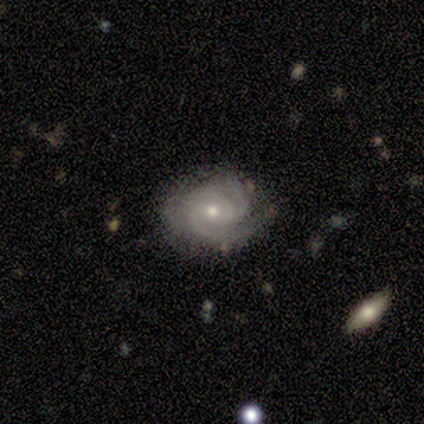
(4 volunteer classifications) A featured or disk galaxy (100%) with a weak bar (50%, tied with no), 2 (75%) medium (50%) spiral arms (100%) and a moderate central bulge (50%, tied with small). Merging: none (75%).